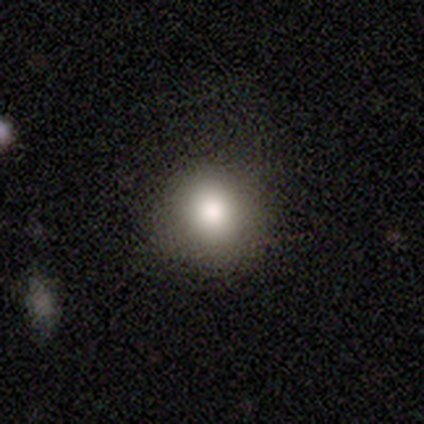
Smooth or featured?
  - smooth: 76% *
  - star or artifact: 14%
  - featured or disk: 11%
How rounded?
  - round: 75% *
  - in between: 25%
  - cigar-shaped: 0%
Merging?
  - none: 84% *
  - major disturbance: 9%
  - minor disturbance: 6%
  - merger: 0%